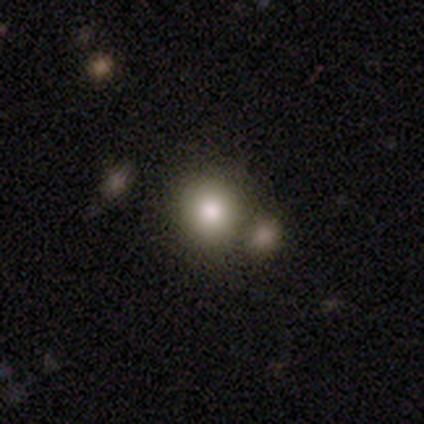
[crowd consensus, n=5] smooth-or-featured: smooth: 80% | featured or disk: 20% | star or artifact: 0%
  how-rounded: round: 100% | in between: 0% | cigar-shaped: 0%
  merging: none: 60% | minor disturbance: 20% | merger: 20% | major disturbance: 0%